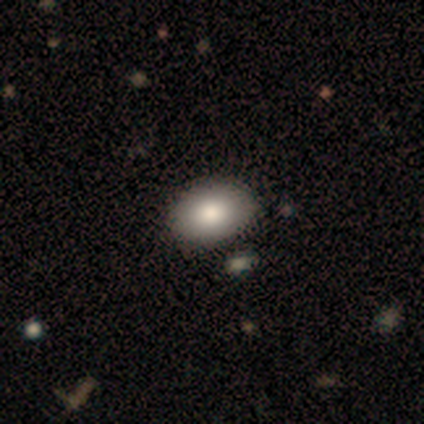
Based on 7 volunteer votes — Morphology: type=smooth (100%); roundness=in between (86%); merging=none (86%).